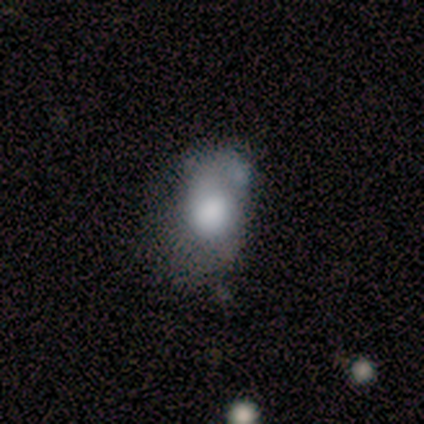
This appears to be a smooth galaxy with no disk features (83%) that is in between round and cigar-shaped (80%). Merging: minor disturbance (33%, tied with major disturbance).